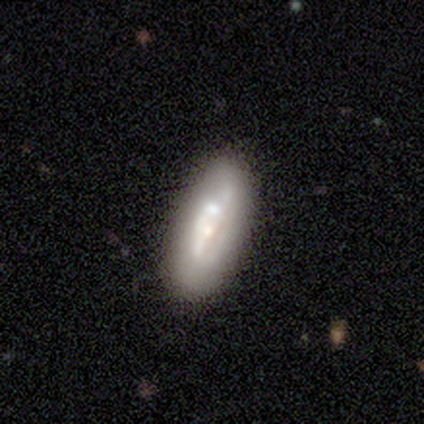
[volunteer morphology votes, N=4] Volunteers were most divided on "merging": none: 50%, minor disturbance: 25%, merger: 25%, major disturbance: 0%. More confident: how rounded — in between (100%); smooth or featured — smooth (75%).